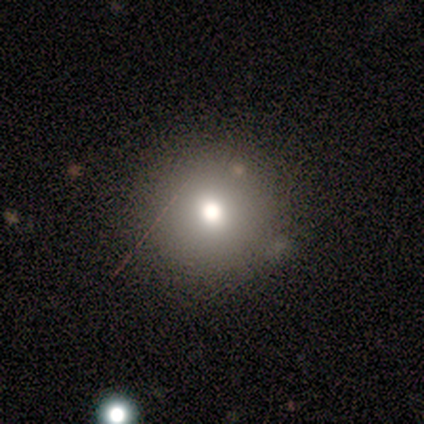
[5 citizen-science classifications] A smooth galaxy with no disk features (80%) that is round (100%).

Vote fractions:
- Smooth or featured? smooth: 80% / featured or disk: 20% / star or artifact: 0%
- How rounded? round: 100% / in between: 0% / cigar-shaped: 0%
- Merging? none: 80% / minor disturbance: 20% / major disturbance: 0% / merger: 0%